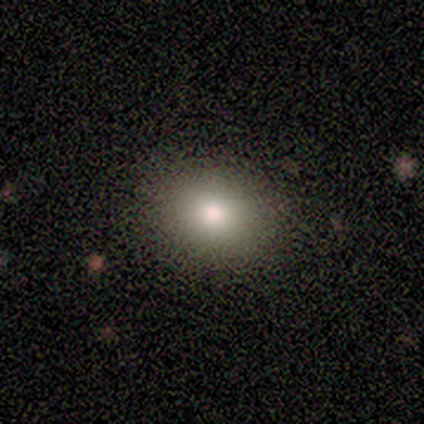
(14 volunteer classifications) Q: Smooth or featured?
A: smooth (86%); runner-up: star or artifact (14%)
Q: How rounded?
A: round (50%); tied with: in between (50%)
Q: Merging?
A: none (100%)